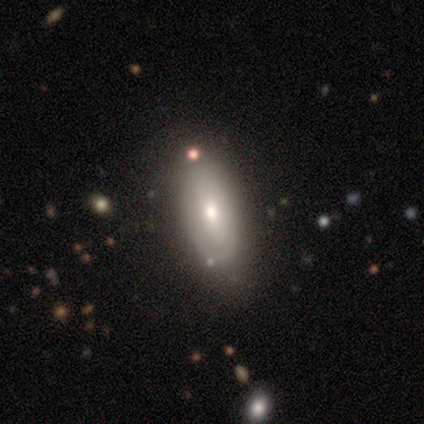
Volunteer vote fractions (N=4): smooth 50% (tied), featured or disk 50% (tied), star or artifact 0%. Down the decision tree: how rounded — in between (100%); merging — none (100%).